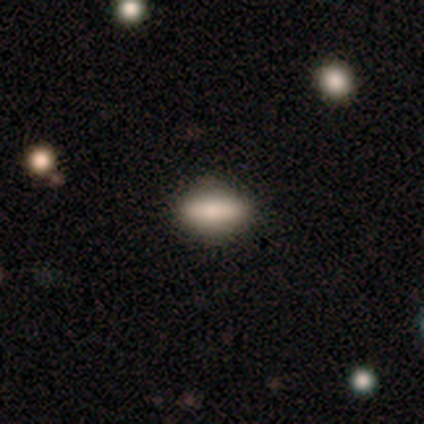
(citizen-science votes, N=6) A smooth galaxy with no disk features (83%) that is in between round and cigar-shaped (80%). Merging: none (100%).